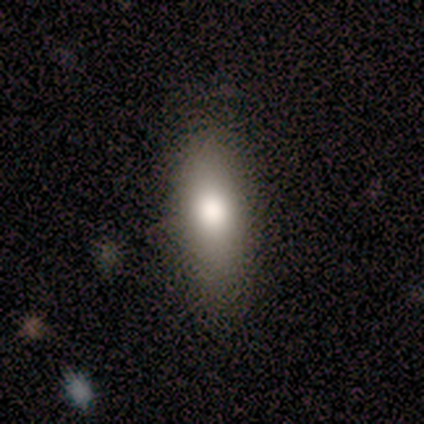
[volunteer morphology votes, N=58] smooth 69%, star or artifact 19%, featured or disk 12%. Down the decision tree: how rounded — cigar-shaped (50%); merging — none (79%).